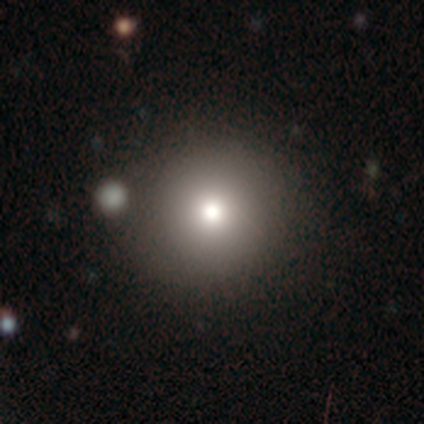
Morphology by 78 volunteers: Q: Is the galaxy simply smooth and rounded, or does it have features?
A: smooth — 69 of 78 (88%).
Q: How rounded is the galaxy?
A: round — 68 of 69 (99%).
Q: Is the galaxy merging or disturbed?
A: none — 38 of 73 (52%).